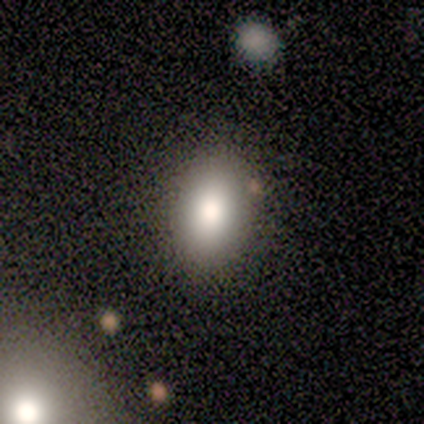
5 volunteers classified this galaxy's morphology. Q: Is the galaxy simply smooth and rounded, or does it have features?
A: smooth — 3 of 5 (60%).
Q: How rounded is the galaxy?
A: in between — 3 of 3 (100%).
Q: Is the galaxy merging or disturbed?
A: none — 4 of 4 (100%).